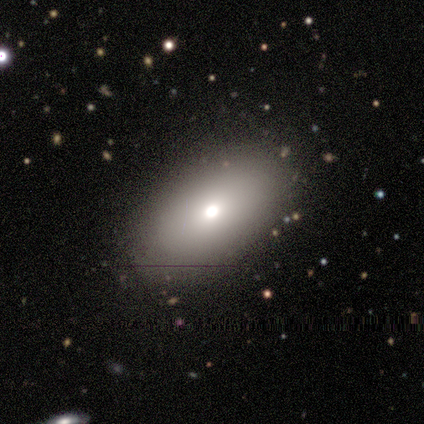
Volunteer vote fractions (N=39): Smooth or featured?
  - smooth: 77% *
  - featured or disk: 15%
  - star or artifact: 8%
How rounded?
  - in between: 97% *
  - round: 3%
  - cigar-shaped: 0%
Merging?
  - none: 81% *
  - minor disturbance: 8%
  - major disturbance: 8%
  - merger: 3%